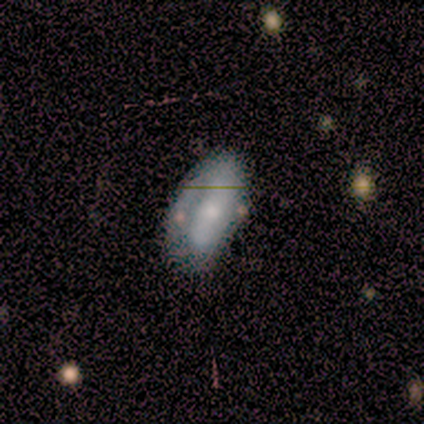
smooth-or-featured: featured or disk: 100% | smooth: 0% | star or artifact: 0%
  disk-edge-on: no: 80% | yes: 20%
    bar: strong: 75% | no: 25% | weak: 0%
    has-spiral-arms: yes: 50% (tied) | no: 50% (tied)
      spiral-winding: medium: 100% | tight: 0% | loose: 0%
      spiral-arm-count: 1: 50% (tied) | 2: 50% (tied) | 3: 0% | 4: 0% | more than 4: 0% | can't tell: 0%
    bulge-size: small: 75% | moderate: 25% | dominant: 0% | large: 0% | none: 0%
  merging: none: 40% (tied) | minor disturbance: 40% (tied) | major disturbance: 20% | merger: 0%